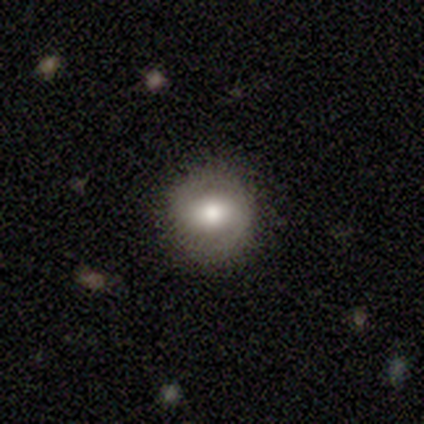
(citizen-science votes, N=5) smooth 80%, featured or disk 20%, star or artifact 0%. Down the decision tree: how rounded — round (100%); merging — none (100%).